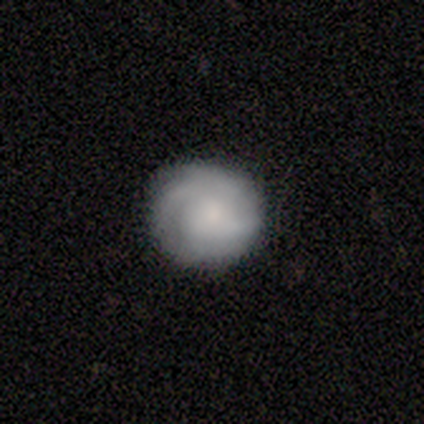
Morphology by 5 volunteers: Smooth or featured? 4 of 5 (80%) said smooth. How rounded? 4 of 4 (100%) said round. Merging? 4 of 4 (100%) said none.